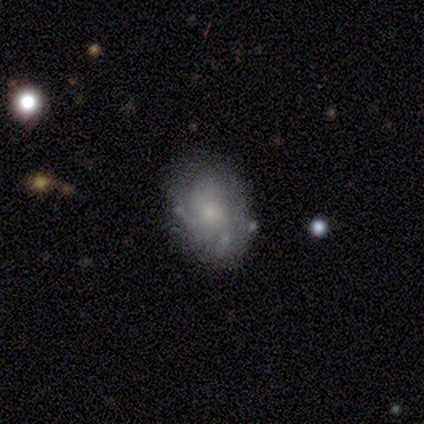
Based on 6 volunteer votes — Q: Smooth or featured?
A: smooth (50%); tied with: featured or disk (50%)
Q: How rounded?
A: in between (100%)
Q: Merging?
A: none (50%); runner-up: minor disturbance (33%)